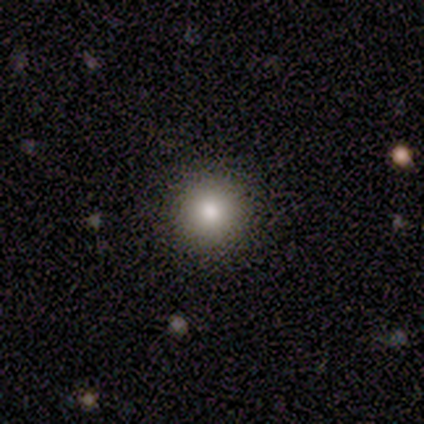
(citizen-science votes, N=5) Smooth or featured? 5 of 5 (100%) said smooth. How rounded? 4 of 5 (80%) said round. Merging? 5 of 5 (100%) said none.